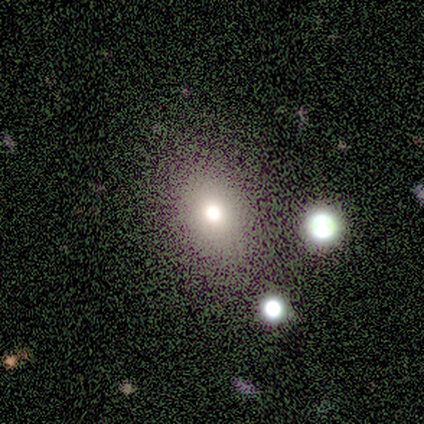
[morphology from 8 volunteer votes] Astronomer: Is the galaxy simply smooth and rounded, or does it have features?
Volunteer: smooth — 100%.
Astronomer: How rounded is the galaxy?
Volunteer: in between — 75%.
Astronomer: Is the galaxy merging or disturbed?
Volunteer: none — 88%.